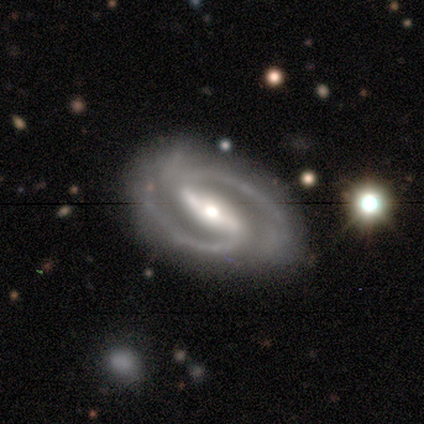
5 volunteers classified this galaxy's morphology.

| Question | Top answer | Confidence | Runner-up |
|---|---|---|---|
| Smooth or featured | featured or disk | 80% | star or artifact (20%) |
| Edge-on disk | no | 75% | yes (25%) |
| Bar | weak | 67% | strong (33%) |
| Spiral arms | yes | 100% | — |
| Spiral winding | medium | 67% | tight (33%) |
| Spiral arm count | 2 | 100% | — |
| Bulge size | moderate | 67% | small (33%) |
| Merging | none | 75% | minor disturbance (25%) |